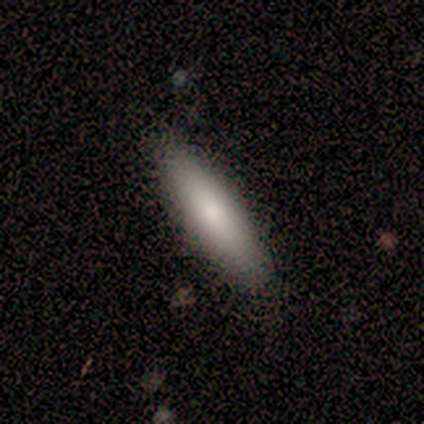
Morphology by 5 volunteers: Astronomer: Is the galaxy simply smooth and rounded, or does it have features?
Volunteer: smooth — 60% (runner-up: featured or disk, 40%).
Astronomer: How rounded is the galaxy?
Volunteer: cigar-shaped — 67%.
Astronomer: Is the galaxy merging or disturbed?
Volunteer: none — 60% (runner-up: minor disturbance, 40%).